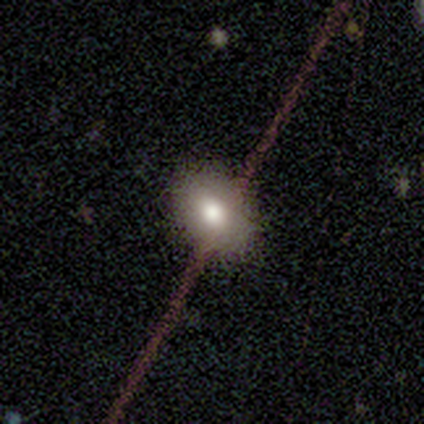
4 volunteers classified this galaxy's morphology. Volunteers were most divided on "smooth or featured": smooth: 75%, star or artifact: 25%, featured or disk: 0%. More confident: how rounded — in between (100%); merging — none (100%).